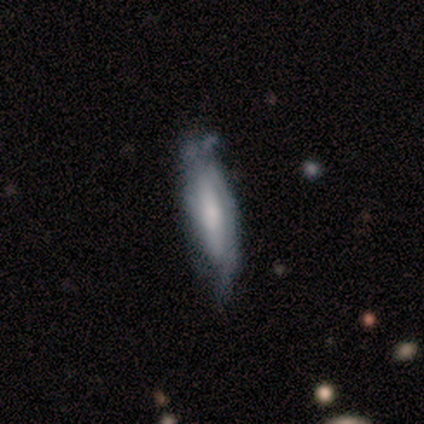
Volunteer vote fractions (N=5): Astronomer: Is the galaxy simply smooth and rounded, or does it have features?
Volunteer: featured or disk — 80%.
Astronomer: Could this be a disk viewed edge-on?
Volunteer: yes — 50%, tied with no at 50%.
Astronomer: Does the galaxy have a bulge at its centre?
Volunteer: boxy — 50%, tied with rounded at 50%.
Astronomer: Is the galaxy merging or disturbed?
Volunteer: minor disturbance — 80%.